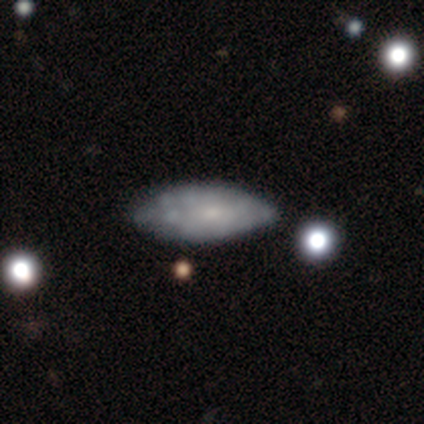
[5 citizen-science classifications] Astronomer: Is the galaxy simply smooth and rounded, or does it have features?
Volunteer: featured or disk — 60% (runner-up: smooth, 40%).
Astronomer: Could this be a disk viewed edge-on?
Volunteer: no — 100%.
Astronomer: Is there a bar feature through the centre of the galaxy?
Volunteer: no — 100%.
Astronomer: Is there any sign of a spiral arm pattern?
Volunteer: no — 100%.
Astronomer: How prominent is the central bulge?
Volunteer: small — 67%.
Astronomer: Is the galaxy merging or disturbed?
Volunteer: none — 60% (runner-up: minor disturbance, 40%).